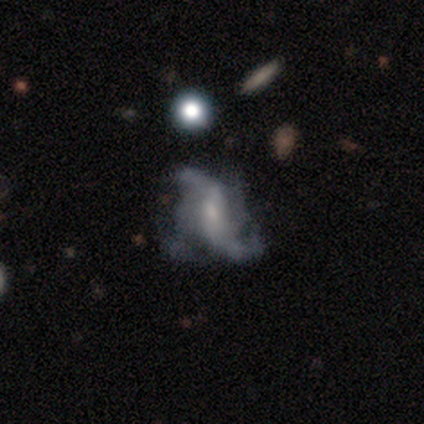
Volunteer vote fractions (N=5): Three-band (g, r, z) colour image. It shows a featured or disk galaxy (60%) with a weak bar (67%), 2 (67%) loose (100%) spiral arms (100%) and no central bulge (67%). Merging: none (50%, tied with major disturbance).